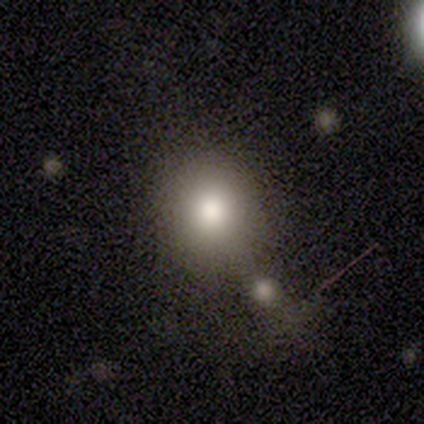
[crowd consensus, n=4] This is clearly a smooth galaxy (100%). How rounded: possibly round (50%, tied with in between). Merging: possibly minor disturbance (50%).